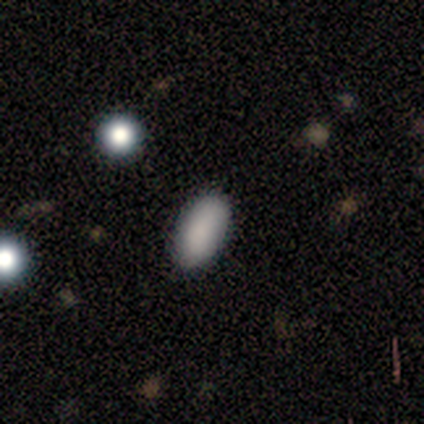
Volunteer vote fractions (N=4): smooth-or-featured: smooth: 50% (tied) | star or artifact: 50% (tied) | featured or disk: 0%
  how-rounded: in between: 100% | round: 0% | cigar-shaped: 0%
  merging: none: 100% | minor disturbance: 0% | major disturbance: 0% | merger: 0%